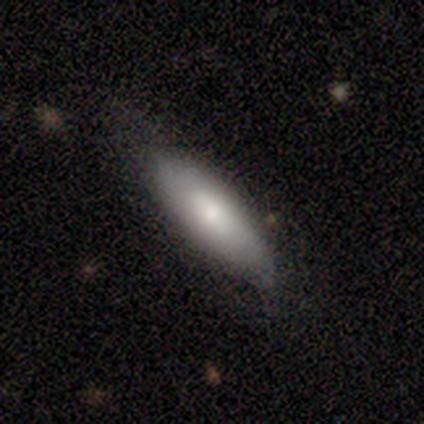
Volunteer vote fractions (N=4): Smooth or featured?
  - smooth: 100% *
  - featured or disk: 0%
  - star or artifact: 0%
How rounded?
  - in between: 50% * (tied)
  - cigar-shaped: 50% * (tied)
  - round: 0%
Merging?
  - none: 75% *
  - minor disturbance: 25%
  - major disturbance: 0%
  - merger: 0%